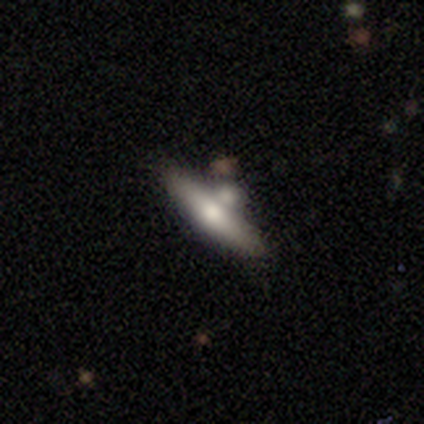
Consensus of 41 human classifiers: Morphology: type=smooth (54%); roundness=cigar-shaped (82%); merging=none (44%).